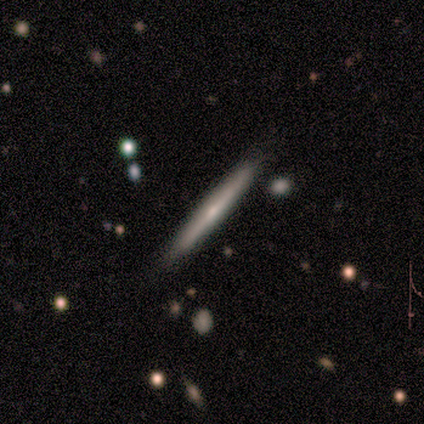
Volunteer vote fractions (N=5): Smooth or featured? featured or disk (60%)
Edge-on disk? yes (100%)
Edge-on bulge? rounded (67%)
Merging? none (80%)